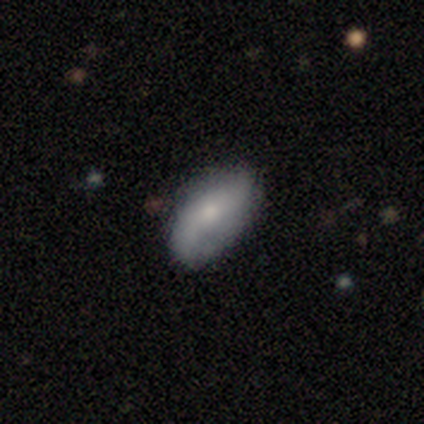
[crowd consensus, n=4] This is likely a smooth galaxy (75%). How rounded: clearly in between (100%). Merging: possibly none (50%).